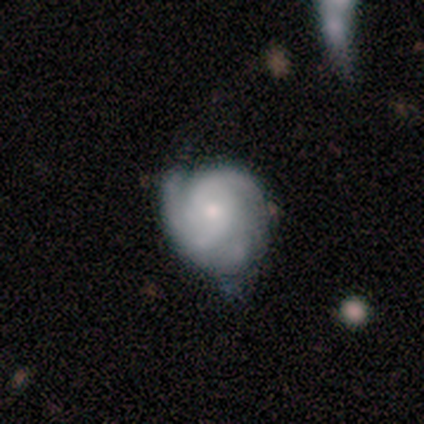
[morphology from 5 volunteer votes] Smooth or featured?
  - featured or disk: 80% *
  - smooth: 20%
  - star or artifact: 0%
Edge-on disk?
  - no: 100% *
  - yes: 0%
Bar?
  - weak: 50% * (tied)
  - no: 50% * (tied)
  - strong: 0%
Spiral arms?
  - yes: 100% *
  - no: 0%
Spiral winding?
  - tight: 75% *
  - medium: 25%
  - loose: 0%
Spiral arm count?
  - 3: 50% *
  - 2: 25%
  - can't tell: 25%
  - 1: 0%
  - 4: 0%
  - more than 4: 0%
Bulge size?
  - small: 75% *
  - none: 25%
  - dominant: 0%
  - large: 0%
  - moderate: 0%
Merging?
  - none: 80% *
  - minor disturbance: 20%
  - major disturbance: 0%
  - merger: 0%